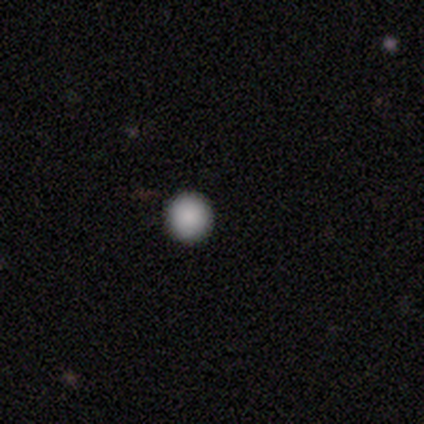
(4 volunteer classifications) Smooth or featured: smooth — 75% (star or artifact — 25%)
How rounded: round — 67% (in between — 33%)
Merging: none — 100%